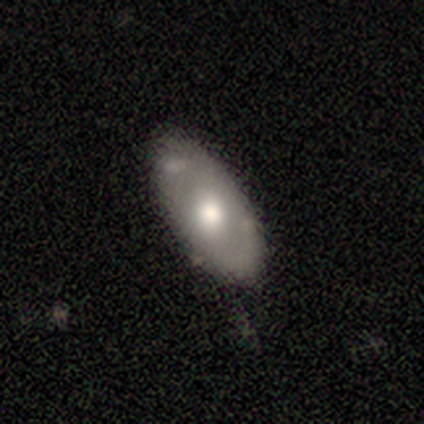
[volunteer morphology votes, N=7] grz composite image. It shows a smooth galaxy with no disk features (71%) that is in between round and cigar-shaped (80%). Merging: none (57%).